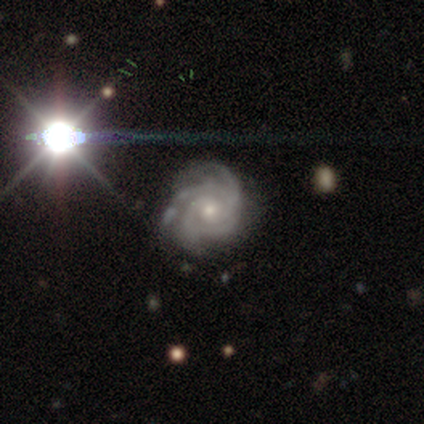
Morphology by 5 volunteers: featured or disk 80%, smooth 20%, star or artifact 0%. Down the decision tree: edge-on disk — no (100%); bar — no (100%); spiral arms — yes (100%); spiral arm count — 4 (75%); spiral winding — tight (100%); bulge size — small (75%); merging — none (100%).